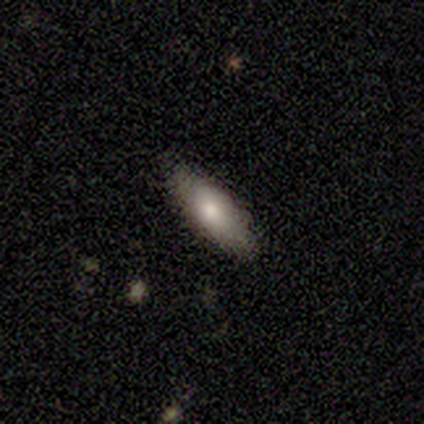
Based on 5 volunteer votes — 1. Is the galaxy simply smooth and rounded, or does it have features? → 80% smooth, 20% featured or disk, 0% star or artifact.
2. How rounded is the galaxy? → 100% cigar-shaped, 0% round, 0% in between.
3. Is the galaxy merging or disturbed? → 80% none, 20% minor disturbance, 0% major disturbance, 0% merger.